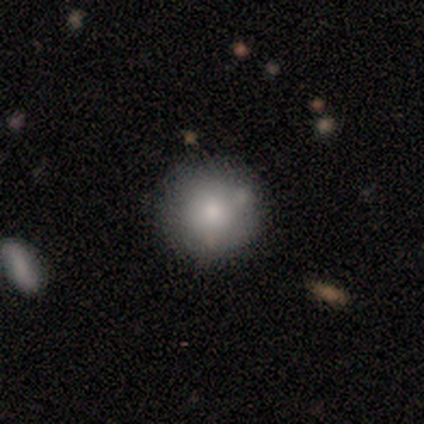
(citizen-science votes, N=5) Smooth or featured? 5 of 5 (100%) said smooth. How rounded? 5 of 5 (100%) said round. Merging? 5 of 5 (100%) said none.